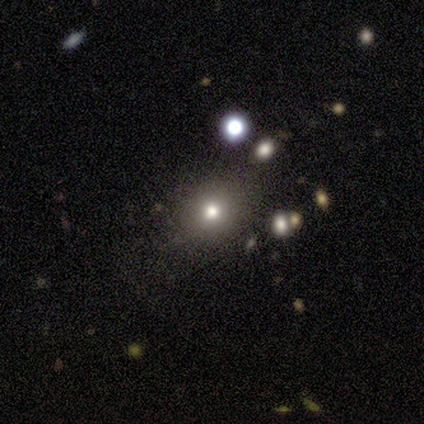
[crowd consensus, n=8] Q: Smooth or featured?
A: smooth (50%); runner-up: star or artifact (38%)
Q: How rounded?
A: round (75%); runner-up: in between (25%)
Q: Merging?
A: minor disturbance (60%); runner-up: none (40%)